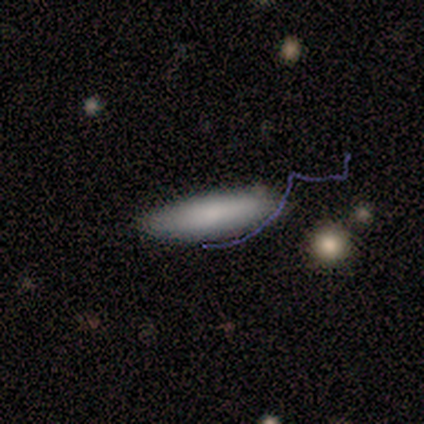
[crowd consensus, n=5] Smooth or featured? smooth (100%)
How rounded? cigar-shaped (80%)
Merging? none (100%)